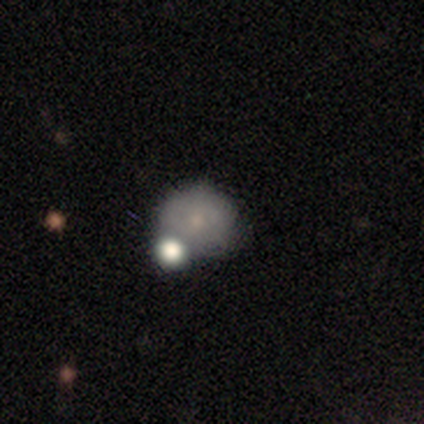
smooth-or-featured: smooth: 80% | featured or disk: 20% | star or artifact: 0%
  how-rounded: round: 100% | in between: 0% | cigar-shaped: 0%
  merging: none: 80% | major disturbance: 20% | minor disturbance: 0% | merger: 0%